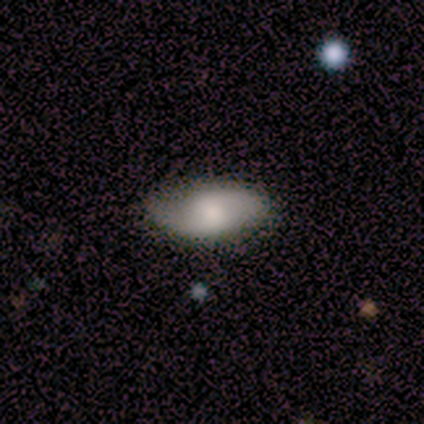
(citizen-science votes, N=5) Smooth or featured?
  - featured or disk: 100% *
  - smooth: 0%
  - star or artifact: 0%
Edge-on disk?
  - no: 80% *
  - yes: 20%
Bar?
  - weak: 50% *
  - strong: 25%
  - no: 25%
Spiral arms?
  - yes: 100% *
  - no: 0%
Spiral winding?
  - medium: 75% *
  - loose: 25%
  - tight: 0%
Spiral arm count?
  - 2: 100% *
  - 1: 0%
  - 3: 0%
  - 4: 0%
  - more than 4: 0%
  - can't tell: 0%
Bulge size?
  - large: 50% *
  - moderate: 25%
  - none: 25%
  - dominant: 0%
  - small: 0%
Merging?
  - none: 100% *
  - minor disturbance: 0%
  - major disturbance: 0%
  - merger: 0%